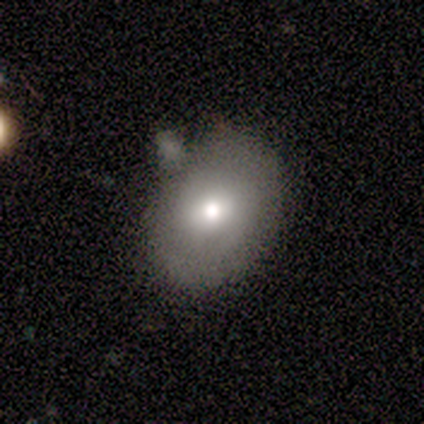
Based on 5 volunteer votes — smooth_or_featured: featured or disk (p=0.60) [alt: smooth p=0.40]
disk_edge_on: no (p=1.00)
bar: no (p=0.67) [alt: weak p=0.33]
has_spiral_arms: no (p=0.67) [alt: yes p=0.33]
bulge_size: large (p=0.67) [alt: moderate p=0.33]
merging: none (p=0.60) [alt: minor disturbance p=0.40]